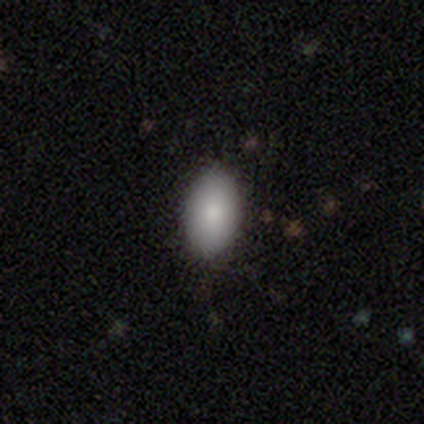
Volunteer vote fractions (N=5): smooth-or-featured: smooth: 100% | featured or disk: 0% | star or artifact: 0%
  how-rounded: in between: 100% | round: 0% | cigar-shaped: 0%
  merging: none: 100% | minor disturbance: 0% | major disturbance: 0% | merger: 0%